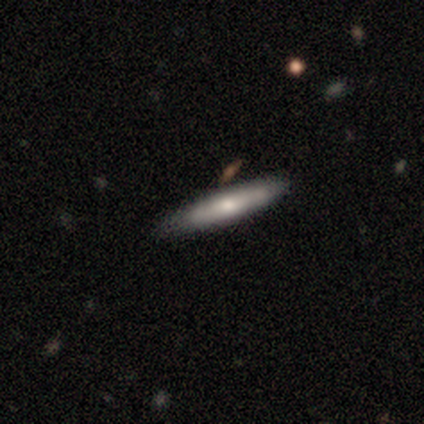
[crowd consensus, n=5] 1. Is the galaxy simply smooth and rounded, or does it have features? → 60% featured or disk, 40% smooth, 0% star or artifact.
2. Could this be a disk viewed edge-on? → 67% yes, 33% no.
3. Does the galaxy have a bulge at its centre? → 50% none (tied), 50% rounded (tied), 0% boxy.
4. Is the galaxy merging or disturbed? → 80% none, 20% minor disturbance, 0% major disturbance, 0% merger.